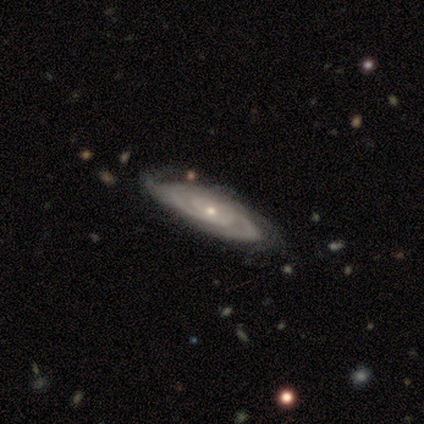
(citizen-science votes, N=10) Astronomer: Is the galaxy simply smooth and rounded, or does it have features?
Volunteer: featured or disk — 90%.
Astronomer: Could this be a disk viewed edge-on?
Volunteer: no — 89%.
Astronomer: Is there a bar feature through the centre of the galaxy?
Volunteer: no — 75%.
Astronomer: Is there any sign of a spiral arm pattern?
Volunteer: yes — 88%.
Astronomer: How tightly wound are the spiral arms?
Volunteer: tight — 57% (runner-up: medium, 43%).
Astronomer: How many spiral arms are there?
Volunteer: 2 — 71%.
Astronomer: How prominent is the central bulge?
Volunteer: moderate — 62%.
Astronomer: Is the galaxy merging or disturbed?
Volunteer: none — 78%.